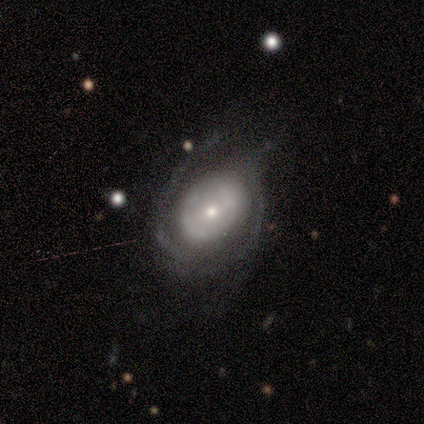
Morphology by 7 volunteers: Overall: featured or disk (86%). Edge-on disk: no (67%; yes 33%). Bar: no (75%). Spiral arms: yes (50%, tied with no). Spiral arm count: 4 (50%, tied with can't tell). Spiral winding: tight (100%). Bulge size: moderate (50%, tied with small). Merging: none (43%, tied with minor disturbance).